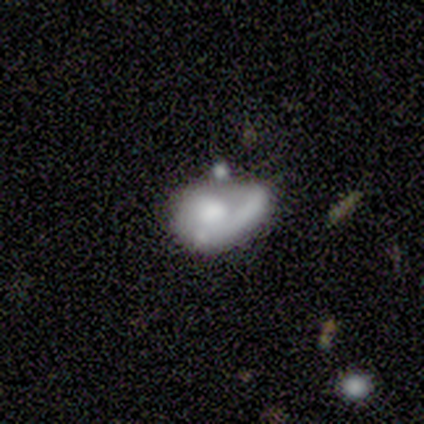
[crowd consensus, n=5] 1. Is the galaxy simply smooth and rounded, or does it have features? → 60% featured or disk, 40% smooth, 0% star or artifact.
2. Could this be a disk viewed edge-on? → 100% no, 0% yes.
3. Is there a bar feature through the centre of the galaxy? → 67% no, 33% weak, 0% strong.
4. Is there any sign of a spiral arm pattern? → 100% no, 0% yes.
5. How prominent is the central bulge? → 67% moderate, 33% none, 0% dominant, 0% large, 0% small.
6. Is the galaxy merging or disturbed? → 40% major disturbance (tied), 40% merger (tied), 20% minor disturbance, 0% none.